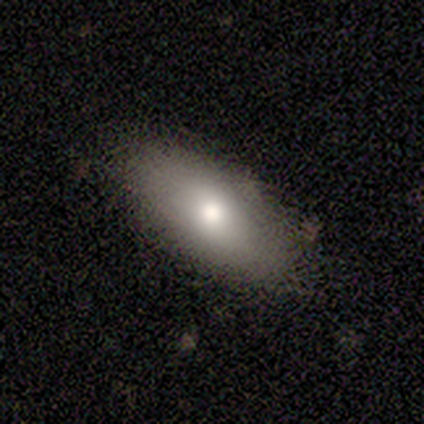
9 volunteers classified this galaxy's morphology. smooth-or-featured: smooth: 78% | featured or disk: 11% | star or artifact: 11%
  how-rounded: in between: 71% | cigar-shaped: 29% | round: 0%
  merging: none: 75% | minor disturbance: 12% | merger: 12% | major disturbance: 0%